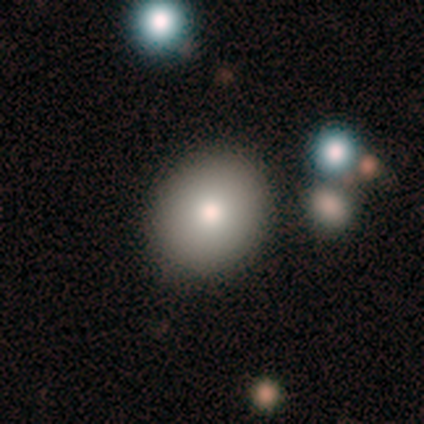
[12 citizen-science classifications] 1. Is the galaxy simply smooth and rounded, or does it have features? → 67% smooth, 33% featured or disk, 0% star or artifact.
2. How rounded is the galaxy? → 62% round, 25% in between, 12% cigar-shaped.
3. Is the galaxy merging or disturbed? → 92% none, 8% minor disturbance, 0% major disturbance, 0% merger.